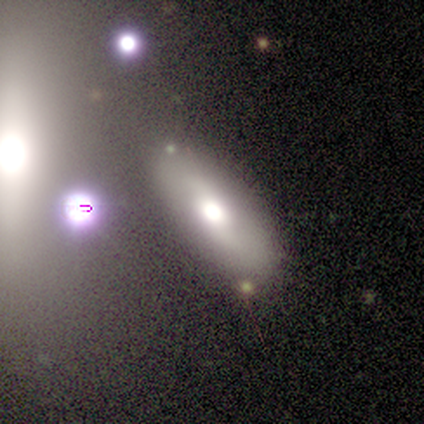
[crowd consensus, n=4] Morphology: type=smooth (50%); roundness=in between (100%); merging=none (67%).